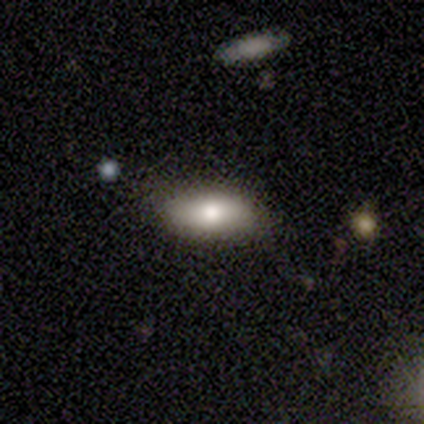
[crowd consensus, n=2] smooth_or_featured: smooth (p=0.50) [tied with: featured or disk p=0.50]
how_rounded: in between (p=1.00)
merging: none (p=0.50) [tied with: minor disturbance p=0.50]